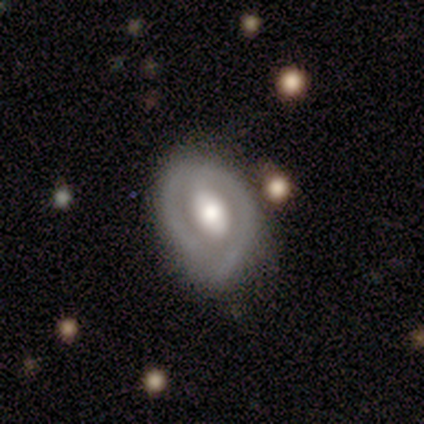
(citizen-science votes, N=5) Smooth or featured? 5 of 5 (100%) said featured or disk. Edge-on disk? 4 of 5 (80%) said no. Bar? 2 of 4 (50%) said weak. Spiral arms? 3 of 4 (75%) said yes. Spiral winding? 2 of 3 (67%) said medium. Spiral arm count? 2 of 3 (67%) said 2. Bulge size? 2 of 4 (50%, tied with moderate) said large. Merging? 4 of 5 (80%) said none.